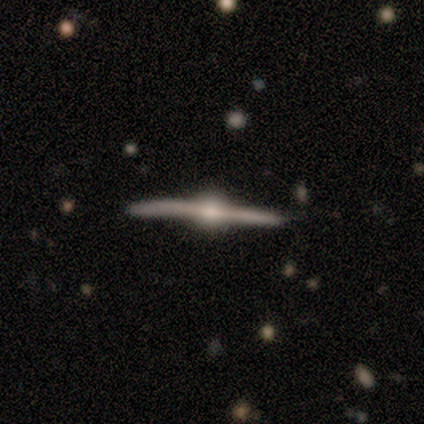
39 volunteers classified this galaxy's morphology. A featured or disk galaxy (97%) viewed edge-on (100%) with a rounded central bulge (100%).

Vote fractions:
- Smooth or featured? featured or disk: 97% / star or artifact: 3% / smooth: 0%
- Edge-on disk? yes: 100% / no: 0%
- Edge-on bulge? rounded: 100% / boxy: 0% / none: 0%
- Merging? none: 79% / minor disturbance: 18% / major disturbance: 3% / merger: 0%